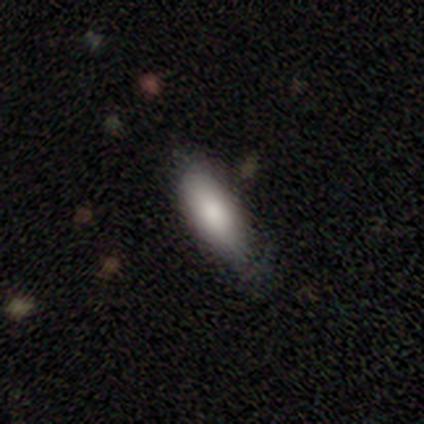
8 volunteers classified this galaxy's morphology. A smooth galaxy with no disk features (88%) that is in between round and cigar-shaped (57%). Merging: none (75%).